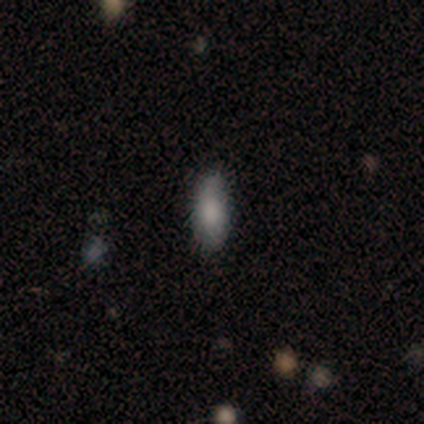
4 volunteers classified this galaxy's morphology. smooth 75%, featured or disk 25%, star or artifact 0%. Down the decision tree: how rounded — cigar-shaped (67%); merging — none (75%).